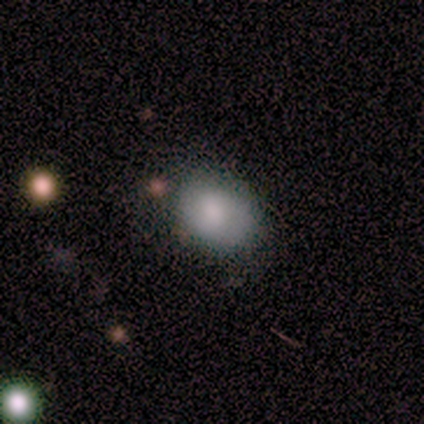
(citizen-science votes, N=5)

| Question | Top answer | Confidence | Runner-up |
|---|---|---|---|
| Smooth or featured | smooth | 60% | star or artifact (40%) |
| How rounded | in between | 67% | round (33%) |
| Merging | minor disturbance | 67% | none (33%) |